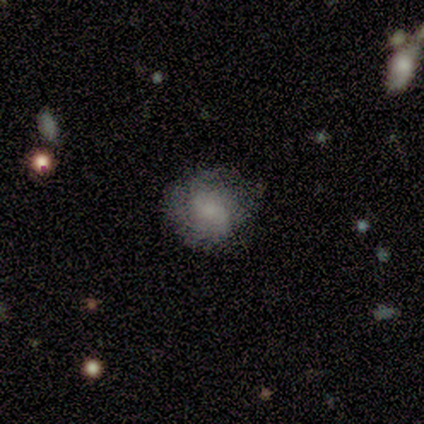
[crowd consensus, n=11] Volunteers were most divided on "bulge size" (2-way tie): moderate: 33%, none: 33%, large: 17%, small: 17%, dominant: 0%. More confident: edge-on disk — no (100%); spiral arms — yes (83%); merging — none (80%); spiral winding — tight (60%); spiral arm count — can't tell (60%); smooth or featured — featured or disk (55%); bar — weak (50%).